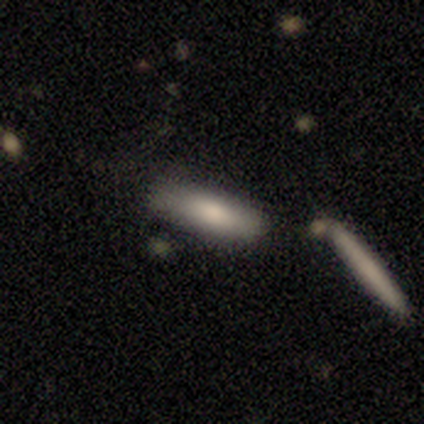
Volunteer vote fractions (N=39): This appears to be a smooth galaxy with no disk features (82%) that is in between round and cigar-shaped (59%). Merging: none (70%).